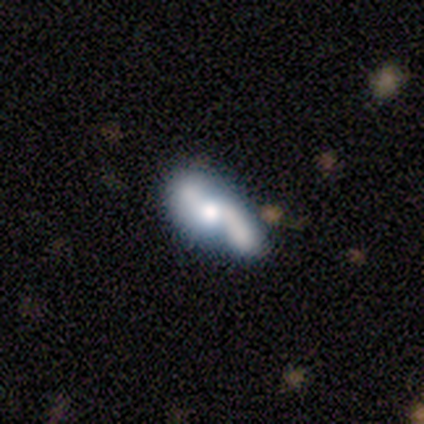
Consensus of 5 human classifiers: Smooth or featured? featured or disk (60%)
Edge-on disk? no (100%)
Bar? strong (33%, tied with weak and no)
Spiral arms? yes (100%)
Spiral winding? loose (67%)
Spiral arm count? 2 (100%)
Bulge size? moderate (67%)
Merging? merger (60%)